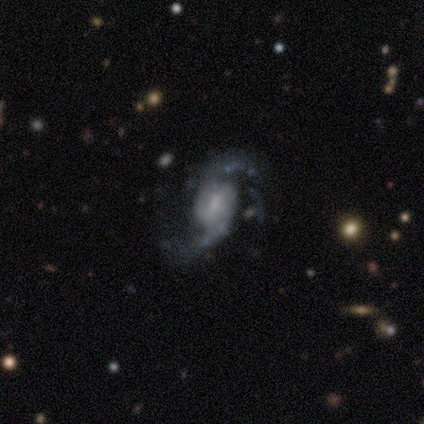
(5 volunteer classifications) smooth_or_featured: featured or disk (p=0.80) [alt: smooth p=0.20]
disk_edge_on: no (p=1.00)
bar: weak (p=0.75) [alt: strong p=0.25]
has_spiral_arms: yes (p=1.00)
spiral_winding: loose (p=0.75) [alt: medium p=0.25]
spiral_arm_count: 2 (p=1.00)
bulge_size: small (p=0.75) [alt: none p=0.25]
merging: major disturbance (p=0.80) [alt: none p=0.20]